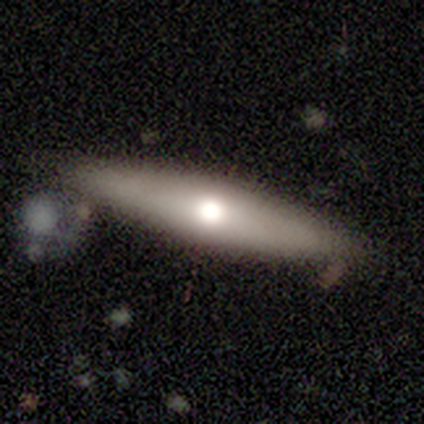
Overall: featured or disk (53%; smooth 45%). Edge-on disk: yes (85%). Edge-on bulge: rounded (82%). Merging: none (76%).